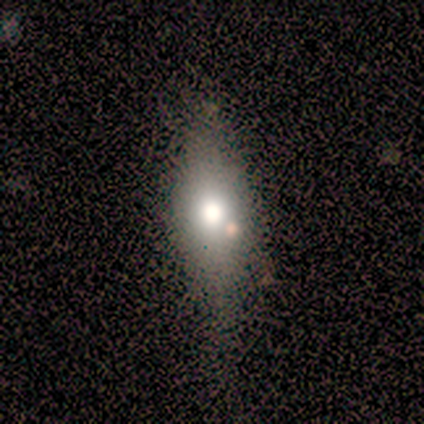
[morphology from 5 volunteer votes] smooth_or_featured: smooth (p=0.60) [alt: featured or disk p=0.40]
how_rounded: in between (p=0.67) [alt: cigar-shaped p=0.33]
merging: none (p=0.60) [alt: minor disturbance p=0.40]